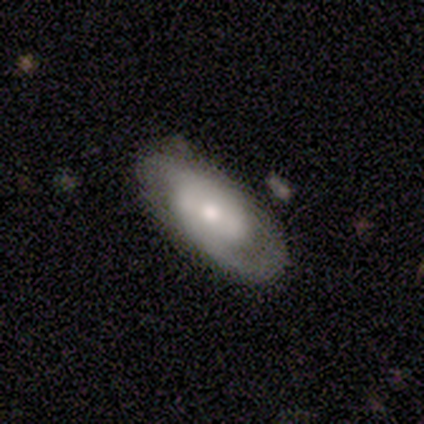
smooth_or_featured: featured or disk (p=1.00)
disk_edge_on: no (p=1.00)
bar: no (p=0.80) [alt: weak p=0.20]
has_spiral_arms: yes (p=0.80) [alt: no p=0.20]
spiral_winding: loose (p=0.50) [alt: tight p=0.25]
spiral_arm_count: 1 (p=0.50) [tied with: 2 p=0.50]
bulge_size: moderate (p=0.60) [alt: small p=0.40]
merging: none (p=0.60) [alt: major disturbance p=0.40]